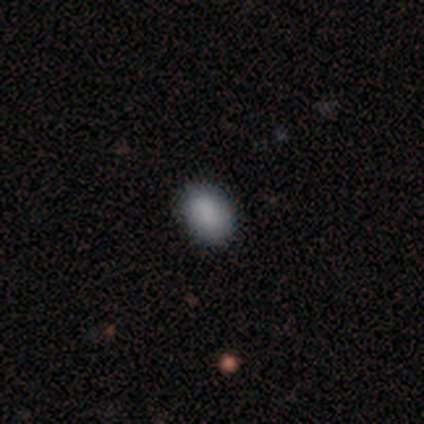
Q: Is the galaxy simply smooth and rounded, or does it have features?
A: smooth — 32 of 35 (91%).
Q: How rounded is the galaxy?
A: in between — 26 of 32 (81%).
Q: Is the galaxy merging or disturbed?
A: none — 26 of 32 (81%).